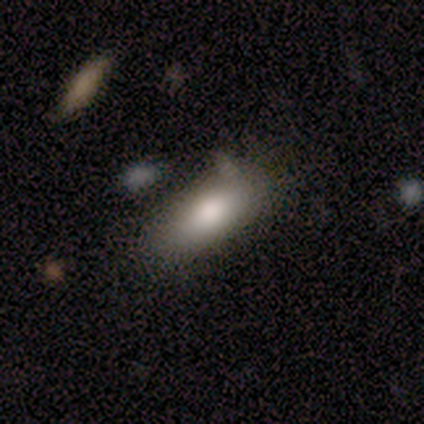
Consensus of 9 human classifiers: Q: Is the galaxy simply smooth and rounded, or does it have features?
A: smooth — 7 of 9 (78%).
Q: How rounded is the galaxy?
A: in between — 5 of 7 (71%).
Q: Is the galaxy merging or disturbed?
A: none — 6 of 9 (67%).